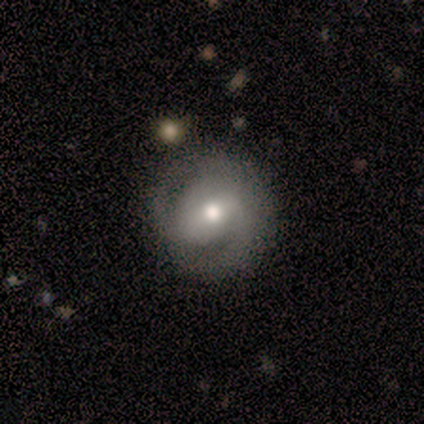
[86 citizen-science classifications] Q: Smooth or featured?
A: featured or disk (78%); runner-up: smooth (12%)
Q: Edge-on disk?
A: no (100%)
Q: Bar?
A: weak (51%); runner-up: strong (27%)
Q: Spiral arms?
A: yes (91%); runner-up: no (9%)
Q: Spiral winding?
A: tight (48%); runner-up: medium (38%)
Q: Spiral arm count?
A: 2 (79%); runner-up: can't tell (10%)
Q: Bulge size?
A: moderate (75%); runner-up: large (12%)
Q: Merging?
A: none (70%); runner-up: minor disturbance (22%)